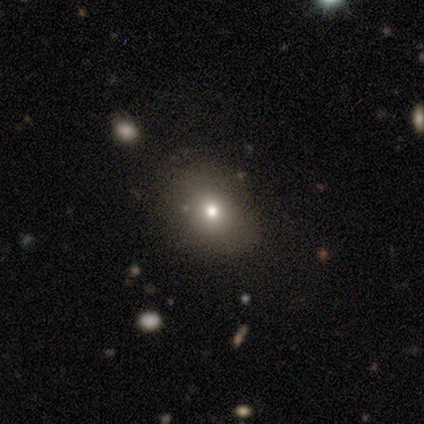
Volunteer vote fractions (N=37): Smooth or featured? smooth (68%)
How rounded? in between (60%)
Merging? none (70%)